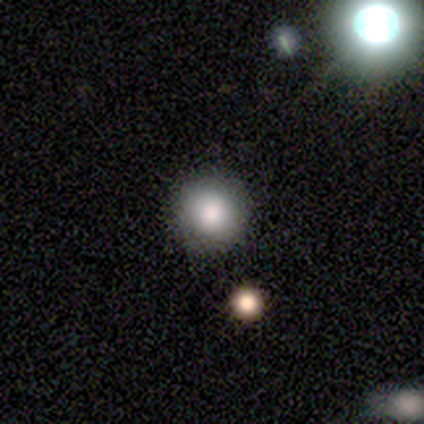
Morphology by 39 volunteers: smooth-or-featured: smooth: 82% | featured or disk: 10% | star or artifact: 8%
  how-rounded: round: 100% | in between: 0% | cigar-shaped: 0%
  merging: none: 78% | minor disturbance: 3% | major disturbance: 0% | merger: 0%